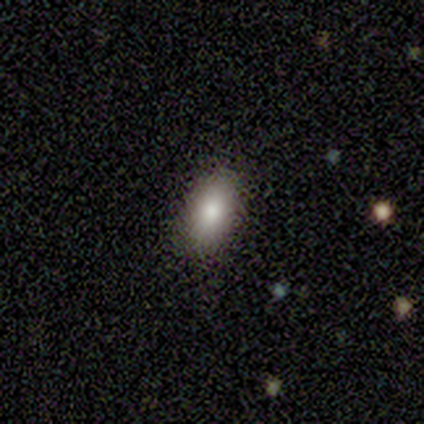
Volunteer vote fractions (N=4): smooth 100%, featured or disk 0%, star or artifact 0%. Down the decision tree: how rounded — in between (100%); merging — none (50%, tied with minor disturbance).